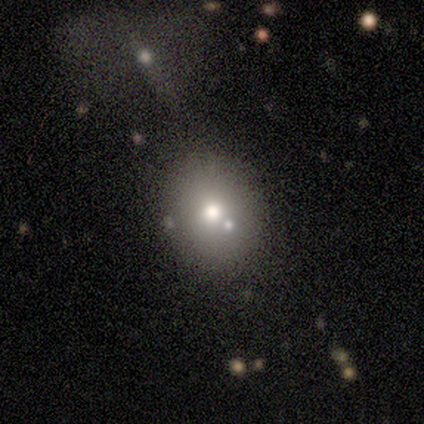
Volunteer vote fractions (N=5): Q: Smooth or featured?
A: smooth (60%); runner-up: featured or disk (20%)
Q: How rounded?
A: round (100%)
Q: Merging?
A: none (50%); tied with: merger (50%)